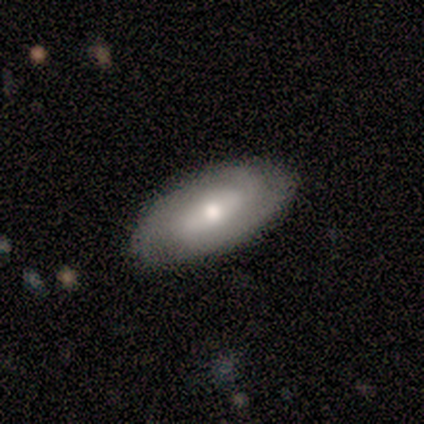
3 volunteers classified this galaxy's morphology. featured or disk 67%, smooth 33%, star or artifact 0%. Down the decision tree: edge-on disk — no (100%); bar — weak (50%, tied with no); spiral arms — yes (100%); spiral arm count — 2 (50%, tied with can't tell); spiral winding — medium (100%); bulge size — moderate (50%, tied with small); merging — none (100%).